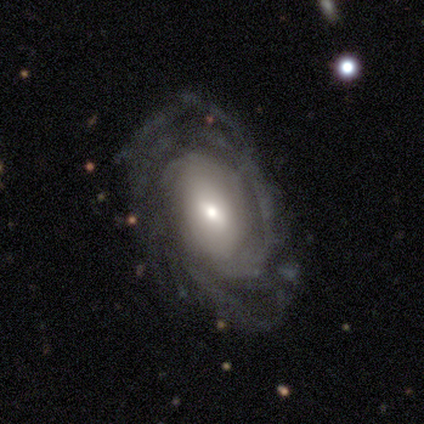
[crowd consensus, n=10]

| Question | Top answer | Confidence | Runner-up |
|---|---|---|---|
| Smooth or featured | featured or disk | 80% | smooth (20%) |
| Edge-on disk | no | 88% | yes (12%) |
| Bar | no | 86% | strong (14%) |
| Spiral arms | yes | 100% | — |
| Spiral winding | tight | 57% | medium (43%) |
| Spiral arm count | can't tell | 57% | 2 (29%) |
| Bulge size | small | 43% | moderate (29%) |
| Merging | none | 50% | minor disturbance (30%) |